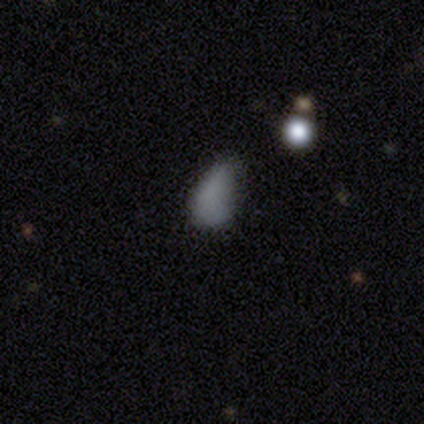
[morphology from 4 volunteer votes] Smooth or featured?
  - smooth: 75% *
  - star or artifact: 25%
  - featured or disk: 0%
How rounded?
  - in between: 100% *
  - round: 0%
  - cigar-shaped: 0%
Merging?
  - none: 33% * (tied)
  - minor disturbance: 33% * (tied)
  - major disturbance: 33% * (tied)
  - merger: 0%